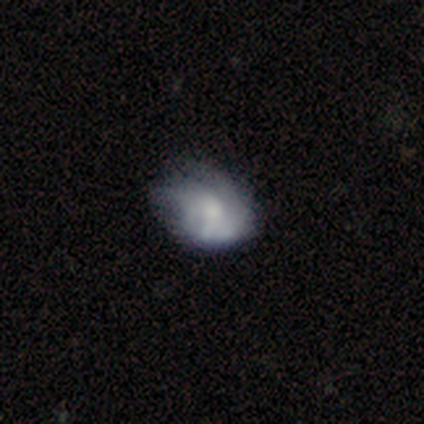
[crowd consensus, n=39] Smooth or featured?
  - featured or disk: 56% *
  - smooth: 38%
  - star or artifact: 5%
Edge-on disk?
  - no: 95% *
  - yes: 5%
Bar?
  - no: 86% *
  - weak: 10%
  - strong: 5%
Spiral arms?
  - no: 67% *
  - yes: 33%
Bulge size?
  - moderate: 38% *
  - small: 24%
  - none: 19%
  - large: 14%
  - dominant: 5%
Merging?
  - major disturbance: 30% *
  - minor disturbance: 27%
  - none: 16%
  - merger: 0%